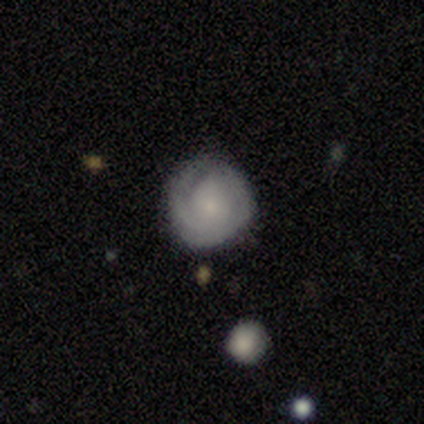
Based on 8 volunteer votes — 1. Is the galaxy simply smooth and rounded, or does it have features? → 50% smooth (tied), 50% featured or disk (tied), 0% star or artifact.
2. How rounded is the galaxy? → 100% round, 0% in between, 0% cigar-shaped.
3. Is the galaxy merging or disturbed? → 62% none, 38% minor disturbance, 0% major disturbance, 0% merger.